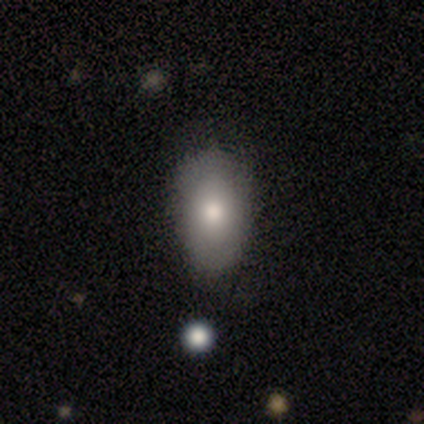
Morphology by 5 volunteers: smooth_or_featured: smooth (p=1.00)
how_rounded: in between (p=0.80) [alt: cigar-shaped p=0.20]
merging: none (p=0.80) [alt: minor disturbance p=0.20]